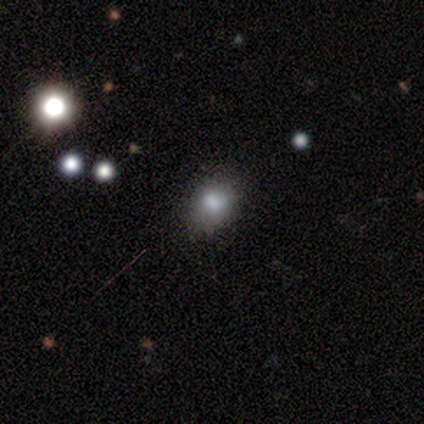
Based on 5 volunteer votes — Q: Smooth or featured?
A: smooth (80%); runner-up: featured or disk (20%)
Q: How rounded?
A: round (50%); tied with: in between (50%)
Q: Merging?
A: none (80%); runner-up: major disturbance (20%)